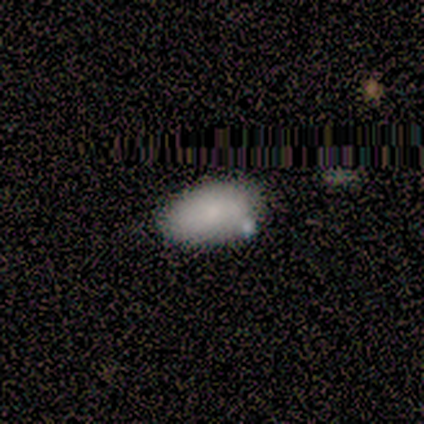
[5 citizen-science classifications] Morphology: type=smooth (100%); roundness=in between (100%); merging=none (80%).